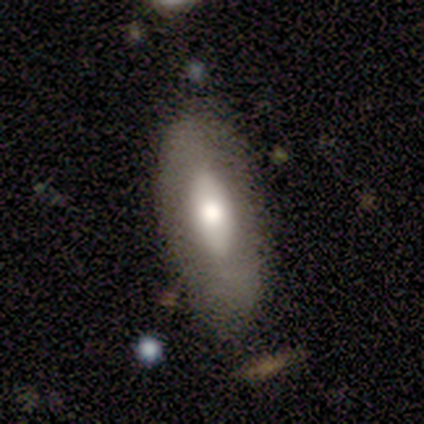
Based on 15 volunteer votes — A smooth galaxy with no disk features (47%) that is in between round and cigar-shaped (100%).

Vote fractions:
- Smooth or featured? smooth: 47% / featured or disk: 40% / star or artifact: 13%
- How rounded? in between: 100% / round: 0% / cigar-shaped: 0%
- Merging? none: 85% / minor disturbance: 15% / major disturbance: 0% / merger: 0%